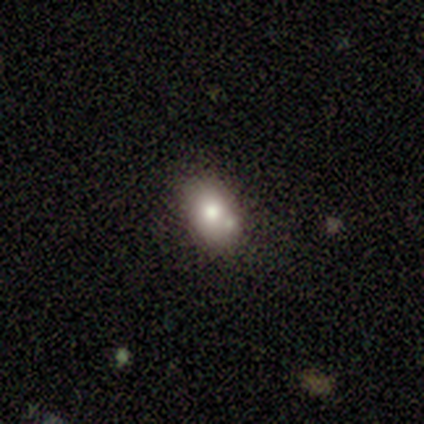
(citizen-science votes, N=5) Smooth or featured: smooth — 40% (tied with star or artifact — 40%)
How rounded: in between — 100%
Merging: none — 33% (tied with minor disturbance — 33%; merger — 33%)